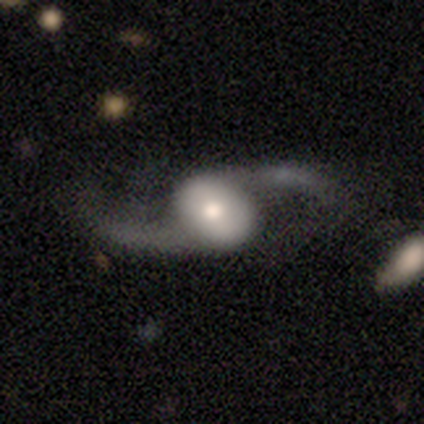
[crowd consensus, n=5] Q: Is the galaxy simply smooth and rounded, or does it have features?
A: featured or disk — 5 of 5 (100%).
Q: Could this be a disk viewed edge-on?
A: no — 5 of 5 (100%).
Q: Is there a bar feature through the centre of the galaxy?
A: strong — 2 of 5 (40%, tied with no).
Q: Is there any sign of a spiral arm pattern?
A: yes — 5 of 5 (100%).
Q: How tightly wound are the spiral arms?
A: loose — 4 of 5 (80%).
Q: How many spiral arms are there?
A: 2 — 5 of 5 (100%).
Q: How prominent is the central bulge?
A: moderate — 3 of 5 (60%).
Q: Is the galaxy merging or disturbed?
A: none — 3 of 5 (60%).